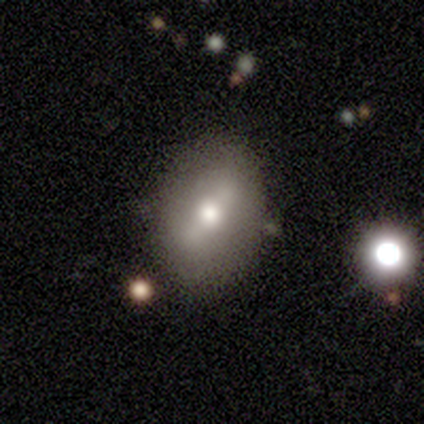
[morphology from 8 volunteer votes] A smooth galaxy with no disk features (75%) that is in between round and cigar-shaped (67%).

Vote fractions:
- Smooth or featured? smooth: 75% / featured or disk: 25% / star or artifact: 0%
- How rounded? in between: 67% / round: 33% / cigar-shaped: 0%
- Merging? none: 88% / minor disturbance: 12% / major disturbance: 0% / merger: 0%